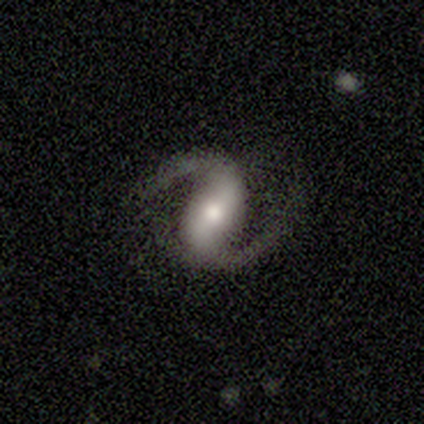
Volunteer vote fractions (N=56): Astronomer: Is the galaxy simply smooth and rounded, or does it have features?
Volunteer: featured or disk — 96%.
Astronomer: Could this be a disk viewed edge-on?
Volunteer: no — 98%.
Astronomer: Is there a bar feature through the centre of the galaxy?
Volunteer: strong — 57%.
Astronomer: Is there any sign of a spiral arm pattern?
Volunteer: yes — 100%.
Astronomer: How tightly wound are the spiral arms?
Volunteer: medium — 55% (runner-up: loose, 43%).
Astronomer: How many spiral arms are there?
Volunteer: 2 — 98%.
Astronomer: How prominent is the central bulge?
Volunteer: moderate — 58%.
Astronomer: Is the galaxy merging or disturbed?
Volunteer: none — 73%.